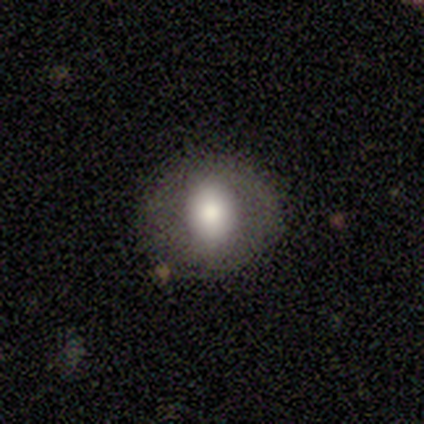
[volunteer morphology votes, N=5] smooth 60%, featured or disk 40%, star or artifact 0%. Down the decision tree: how rounded — in between (67%); merging — none (60%).